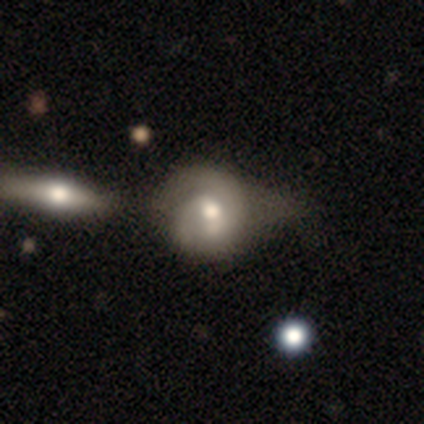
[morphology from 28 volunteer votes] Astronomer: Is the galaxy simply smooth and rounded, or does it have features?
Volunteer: featured or disk — 64%.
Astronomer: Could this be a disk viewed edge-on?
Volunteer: no — 100%.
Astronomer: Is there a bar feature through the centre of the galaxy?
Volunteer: weak — 44% (runner-up: no, 39%).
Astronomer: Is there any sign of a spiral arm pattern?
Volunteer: yes — 89%.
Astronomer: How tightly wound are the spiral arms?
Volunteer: tight — 44%, tied with medium at 44%.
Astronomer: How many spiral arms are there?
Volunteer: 2 — 62%.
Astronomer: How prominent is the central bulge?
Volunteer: moderate — 56%.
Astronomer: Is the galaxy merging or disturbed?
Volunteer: minor disturbance — 43% (runner-up: merger, 24%).